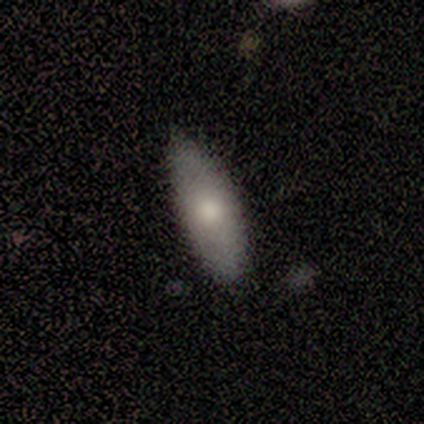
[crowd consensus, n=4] A smooth galaxy with no disk features (75%) that is in between round and cigar-shaped (67%). Merging: none (75%).